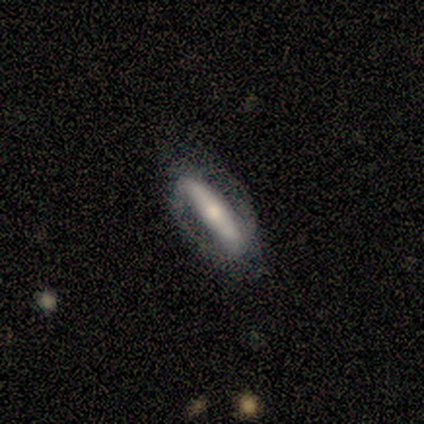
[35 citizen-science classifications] This is likely a featured or disk galaxy (74%). It is likely not viewed edge-on (77%). Bar: likely strong (75%). Spiral arm pattern: likely yes (60%). Spiral arm count: clearly 2 (92%). Spiral winding: possibly loose (50%). Central bulge: possibly moderate (45%). Merging: likely none (65%).